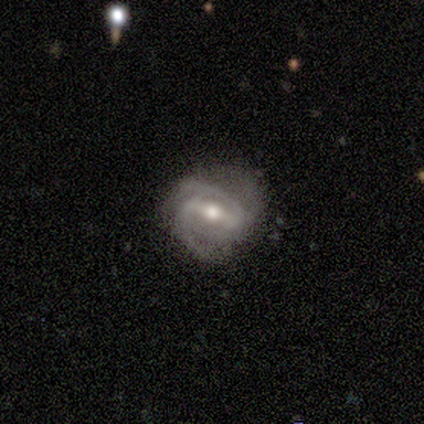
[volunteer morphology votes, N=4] Smooth or featured? featured or disk (100%)
Edge-on disk? no (100%)
Bar? strong (75%)
Spiral arms? yes (100%)
Spiral winding? medium (75%)
Spiral arm count? 3 (50%)
Bulge size? moderate (75%)
Merging? none (75%)